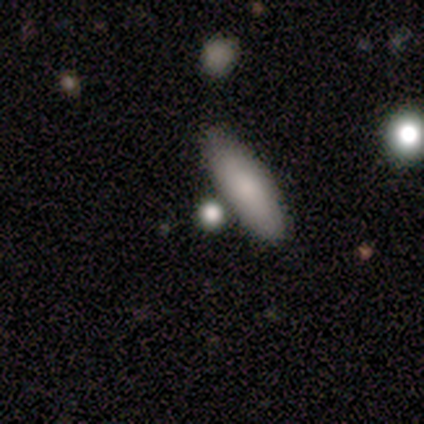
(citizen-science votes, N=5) Overall: smooth (100%). How rounded: in between (60%; round 20%). Merging: none (80%).